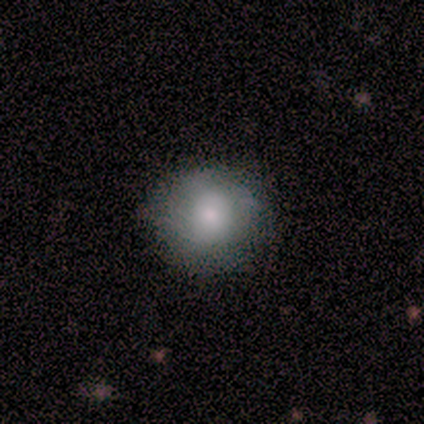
This is likely a smooth galaxy (60%). How rounded: clearly round (100%). Merging: possibly none (50%, tied with minor disturbance).